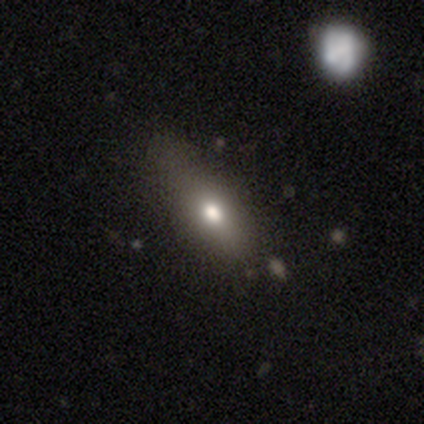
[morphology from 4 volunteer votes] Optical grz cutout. It shows a smooth galaxy with no disk features (100%) that is cigar-shaped (50%). Merging: none (50%, tied with minor disturbance).